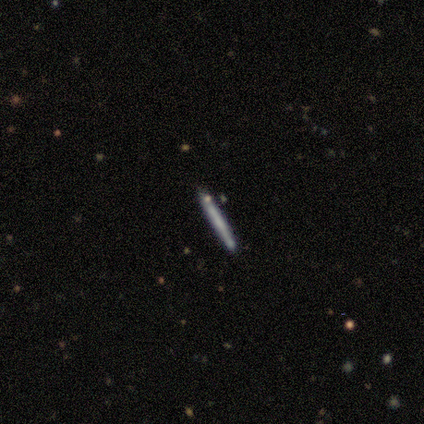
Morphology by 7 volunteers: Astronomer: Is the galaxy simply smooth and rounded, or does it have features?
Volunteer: smooth — 57% (runner-up: featured or disk, 43%).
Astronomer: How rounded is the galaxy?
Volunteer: cigar-shaped — 100%.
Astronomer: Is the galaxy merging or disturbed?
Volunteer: none — 86%.